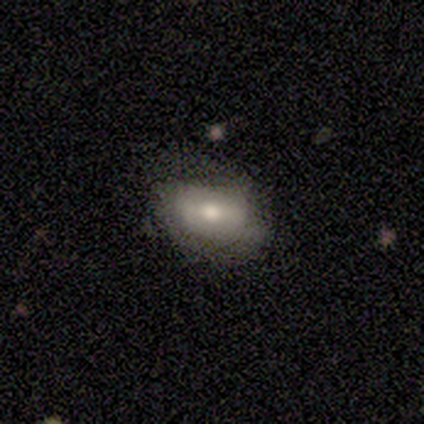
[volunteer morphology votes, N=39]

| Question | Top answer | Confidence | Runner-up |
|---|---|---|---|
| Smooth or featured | smooth | 59% | featured or disk (33%) |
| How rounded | in between | 91% | round (9%) |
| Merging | none | 33% | minor disturbance (25%) |